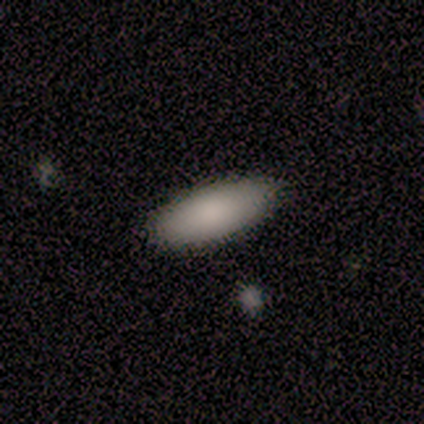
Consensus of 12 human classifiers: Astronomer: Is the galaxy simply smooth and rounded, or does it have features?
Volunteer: smooth — 100%.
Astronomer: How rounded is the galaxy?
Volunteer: in between — 100%.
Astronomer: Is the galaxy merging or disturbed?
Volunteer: none — 83%.